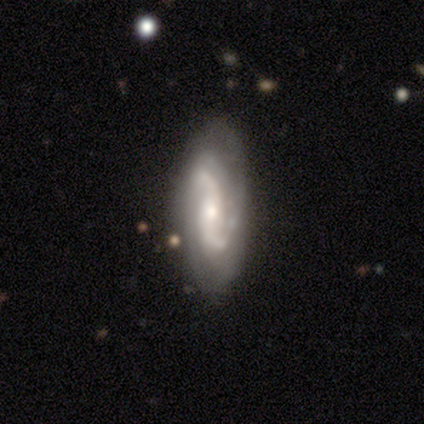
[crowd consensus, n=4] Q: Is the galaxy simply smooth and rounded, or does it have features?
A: featured or disk — 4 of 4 (100%).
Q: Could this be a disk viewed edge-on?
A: no — 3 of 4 (75%).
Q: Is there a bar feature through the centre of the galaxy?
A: strong — 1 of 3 (33%, tied with weak and no).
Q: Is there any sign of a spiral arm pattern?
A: yes — 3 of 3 (100%).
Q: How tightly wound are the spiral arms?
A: medium — 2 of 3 (67%).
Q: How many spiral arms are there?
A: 2 — 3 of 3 (100%).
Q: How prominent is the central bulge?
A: moderate — 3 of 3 (100%).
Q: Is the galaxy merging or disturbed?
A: none — 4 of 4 (100%).